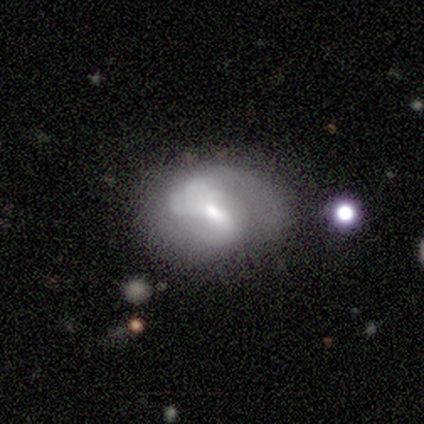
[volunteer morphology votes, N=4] This is possibly a featured or disk galaxy (50%). It is clearly not viewed edge-on (100%). Bar: clearly weak (100%). Spiral arm pattern: clearly yes (100%). Spiral arm count: possibly 2 (50%, tied with 4). Spiral winding: possibly medium (50%, tied with loose). Central bulge: clearly small (100%). Merging: likely minor disturbance (67%).